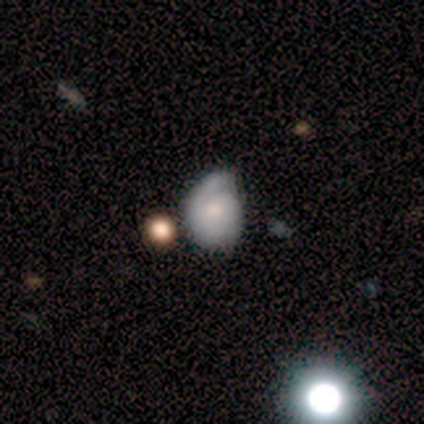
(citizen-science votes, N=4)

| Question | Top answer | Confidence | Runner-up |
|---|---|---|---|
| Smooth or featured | smooth | 50% | tied: featured or disk (50%) |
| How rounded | round | 50% | tied: in between (50%) |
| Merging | merger | 50% | none (25%) |